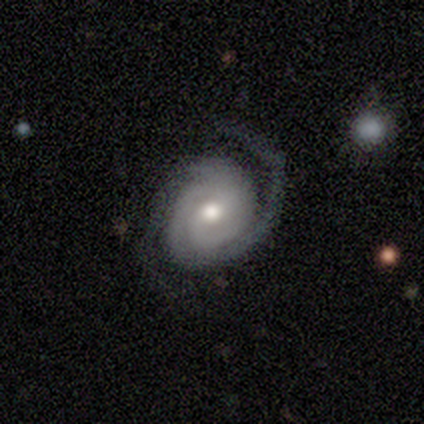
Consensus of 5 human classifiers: Morphology: type=featured or disk (100%); edge-on=no (100%); bar=no (60%); spiral arms=yes (100%); winding=medium (60%); arm count=2 (80%); bulge=small (40%); merging=none (80%).